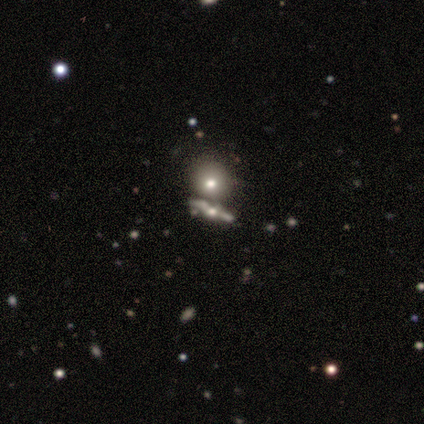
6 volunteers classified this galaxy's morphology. Smooth or featured?
  - smooth: 50% *
  - featured or disk: 33%
  - star or artifact: 17%
How rounded?
  - round: 33% * (tied)
  - in between: 33% * (tied)
  - cigar-shaped: 33% * (tied)
Merging?
  - none: 80% *
  - merger: 20%
  - minor disturbance: 0%
  - major disturbance: 0%